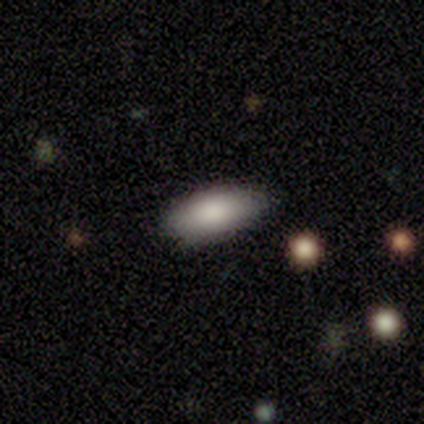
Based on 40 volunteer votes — smooth-or-featured: smooth: 82% | featured or disk: 12% | star or artifact: 5%
  how-rounded: in between: 79% | round: 12% | cigar-shaped: 9%
  merging: none: 71% | minor disturbance: 18% | major disturbance: 8% | merger: 3%